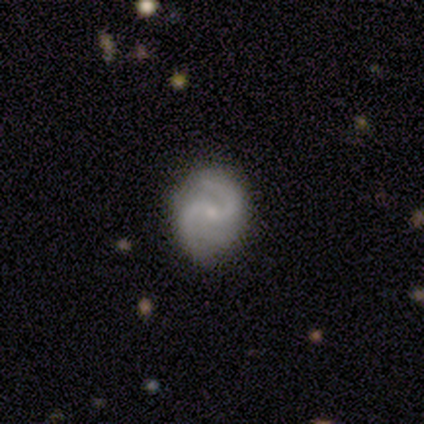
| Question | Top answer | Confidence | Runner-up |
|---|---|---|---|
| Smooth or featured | featured or disk | 82% | smooth (15%) |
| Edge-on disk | no | 97% | yes (3%) |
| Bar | weak | 55% | no (39%) |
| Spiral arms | yes | 97% | no (3%) |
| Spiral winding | medium | 67% | loose (23%) |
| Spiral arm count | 2 | 77% | 3 (17%) |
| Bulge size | small | 74% | moderate (19%) |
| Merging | none | 71% | minor disturbance (24%) |